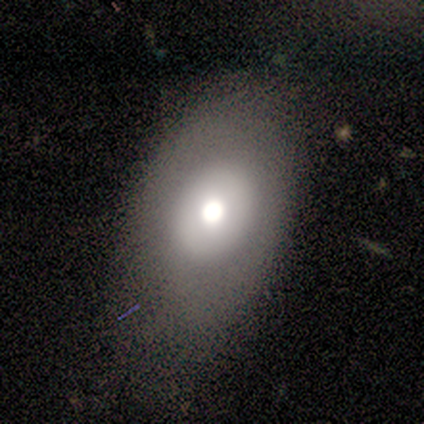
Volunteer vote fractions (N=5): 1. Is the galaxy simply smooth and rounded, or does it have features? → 60% smooth, 40% featured or disk, 0% star or artifact.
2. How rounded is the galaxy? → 100% in between, 0% round, 0% cigar-shaped.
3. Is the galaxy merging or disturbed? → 60% none, 40% minor disturbance, 0% major disturbance, 0% merger.